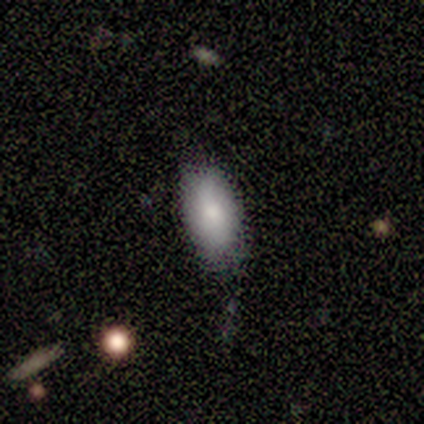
Morphology: type=smooth (80%); roundness=in between (100%); merging=none (40%, tied with minor disturbance).